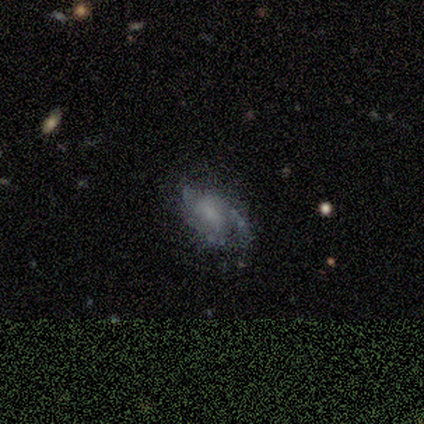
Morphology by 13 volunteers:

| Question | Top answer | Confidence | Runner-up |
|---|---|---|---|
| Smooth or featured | featured or disk | 92% | smooth (8%) |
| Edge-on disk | no | 100% | — |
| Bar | no | 83% | weak (17%) |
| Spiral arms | yes | 92% | no (8%) |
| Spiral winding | tight | 64% | medium (27%) |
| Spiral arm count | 3 | 45% | 2 (27%) |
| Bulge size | small | 42% | none (33%) |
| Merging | none | 69% | minor disturbance (23%) |